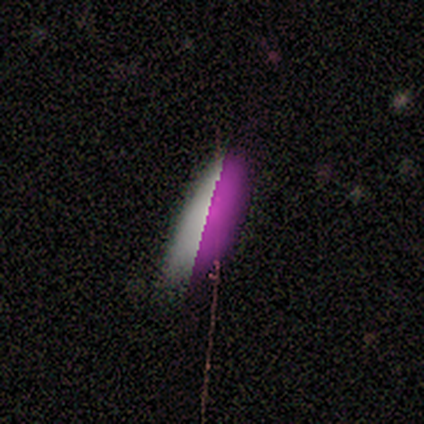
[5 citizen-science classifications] smooth_or_featured: star or artifact (p=0.60) [alt: smooth p=0.40]